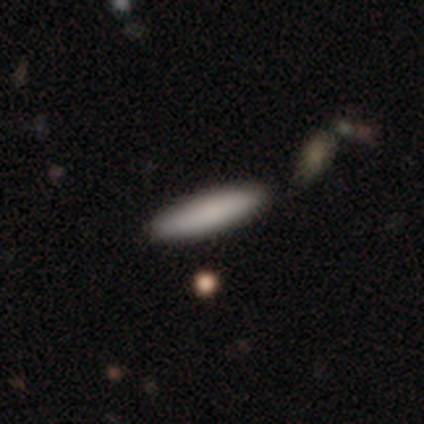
smooth 100%, featured or disk 0%, star or artifact 0%. Down the decision tree: how rounded — cigar-shaped (60%); merging — none (60%).